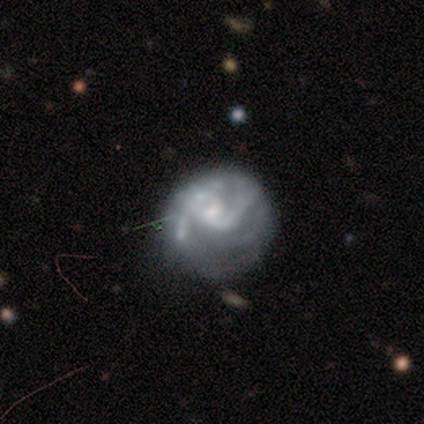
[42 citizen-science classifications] featured or disk 64%, smooth 26%, star or artifact 10%. Down the decision tree: edge-on disk — no (100%); bar — weak (48%, tied with no); spiral arms — yes (74%); spiral arm count — 2 (80%); spiral winding — medium (50%); bulge size — small (48%); merging — none (42%).